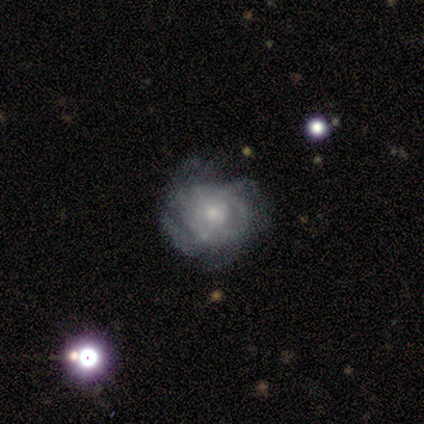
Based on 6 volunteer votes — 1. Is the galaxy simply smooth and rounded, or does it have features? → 100% featured or disk, 0% smooth, 0% star or artifact.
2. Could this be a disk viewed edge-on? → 100% no, 0% yes.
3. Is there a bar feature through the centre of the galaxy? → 83% no, 17% strong, 0% weak.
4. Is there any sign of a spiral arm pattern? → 100% yes, 0% no.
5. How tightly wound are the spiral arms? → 67% tight, 17% medium, 17% loose.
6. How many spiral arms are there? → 50% 4, 17% 3, 17% more than 4, 17% can't tell, 0% 1, 0% 2.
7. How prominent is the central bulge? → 67% small, 33% moderate, 0% dominant, 0% large, 0% none.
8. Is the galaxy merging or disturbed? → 83% none, 17% minor disturbance, 0% major disturbance, 0% merger.